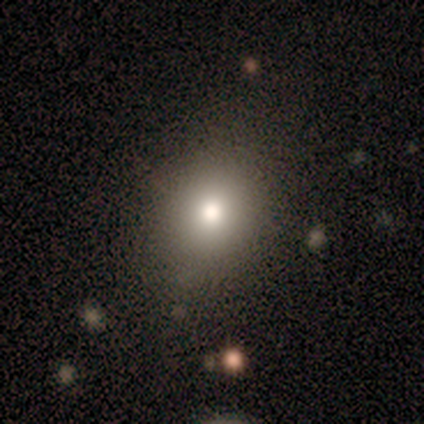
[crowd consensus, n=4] Smooth or featured? 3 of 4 (75%) said smooth. How rounded? 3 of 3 (100%) said round. Merging? 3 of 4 (75%) said none.